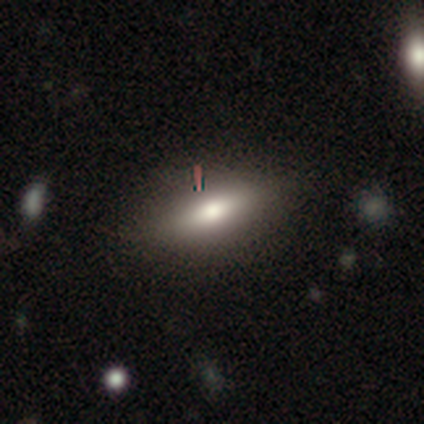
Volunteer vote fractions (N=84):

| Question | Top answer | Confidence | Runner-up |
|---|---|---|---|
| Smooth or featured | smooth | 77% | featured or disk (18%) |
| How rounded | in between | 72% | cigar-shaped (28%) |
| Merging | none | 85% | minor disturbance (9%) |